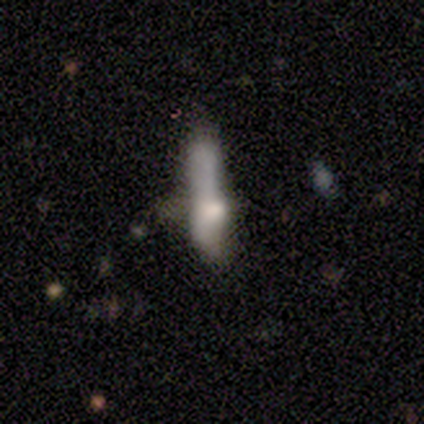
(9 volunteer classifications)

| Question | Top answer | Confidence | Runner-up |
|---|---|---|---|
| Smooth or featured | smooth | 56% | featured or disk (33%) |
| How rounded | cigar-shaped | 80% | in between (20%) |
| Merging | none | 50% | merger (25%) |